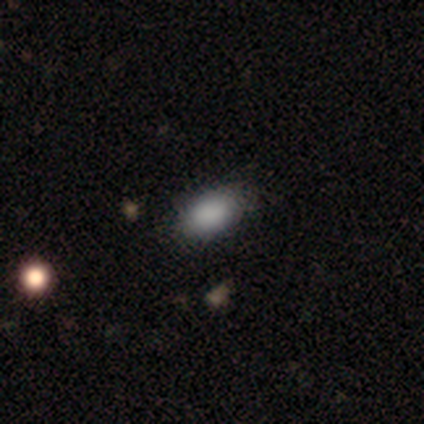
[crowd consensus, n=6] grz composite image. It shows a smooth galaxy with no disk features (100%) that is in between round and cigar-shaped (100%). Merging: none (83%).